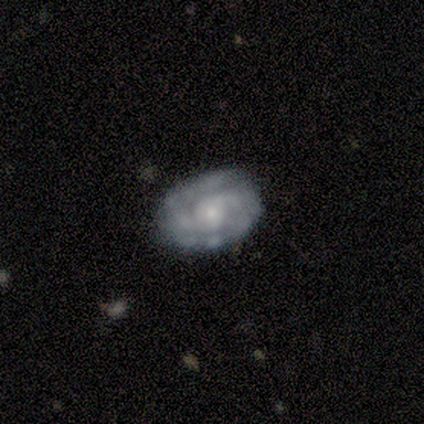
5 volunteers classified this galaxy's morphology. Volunteers were most divided on "spiral arm count" (2-way tie): 2: 40%, can't tell: 40%, 3: 20%, 1: 0%, 4: 0%, more than 4: 0%. More confident: smooth or featured — featured or disk (100%); edge-on disk — no (100%); spiral arms — yes (100%); merging — none (100%); bar — no (80%); spiral winding — tight (80%); bulge size — small (80%).